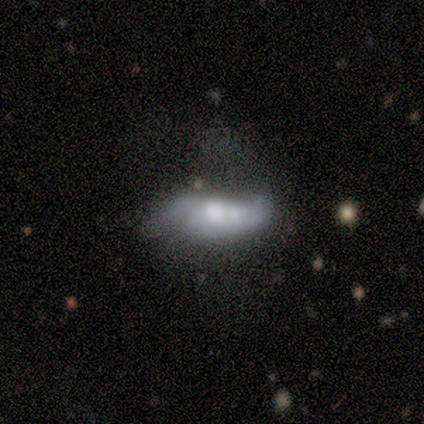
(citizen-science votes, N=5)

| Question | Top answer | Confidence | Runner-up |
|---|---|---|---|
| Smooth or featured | featured or disk | 60% | smooth (20%) |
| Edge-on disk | no | 100% | — |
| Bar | weak | 67% | no (33%) |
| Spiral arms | yes | 67% | no (33%) |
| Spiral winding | medium | 50% | tied: loose (50%) |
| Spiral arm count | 2 | 100% | — |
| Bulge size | moderate | 67% | large (33%) |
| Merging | minor disturbance | 50% | none (25%) |